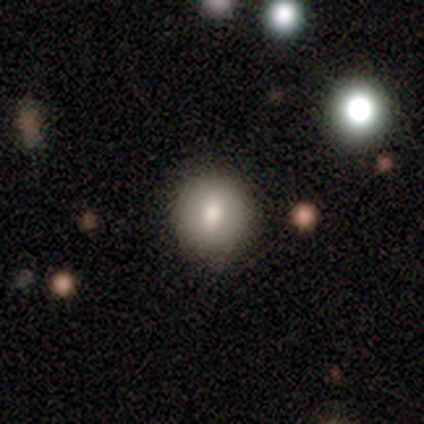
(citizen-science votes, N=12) Smooth or featured: smooth — 67% (featured or disk — 25%)
How rounded: round — 88% (in between — 12%)
Merging: none — 91% (minor disturbance — 9%)